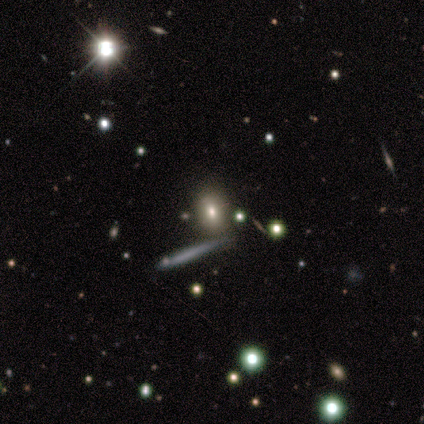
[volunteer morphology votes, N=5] type=smooth (60%); roundness=round (33%, tied with in between and cigar-shaped); merging=none (33%, tied with minor disturbance and major disturbance).